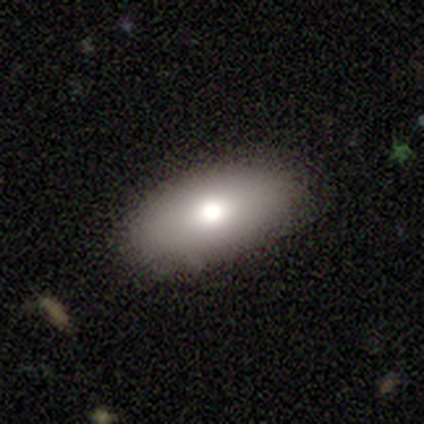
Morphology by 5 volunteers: Smooth or featured? smooth (80%)
How rounded? in between (75%)
Merging? none (100%)